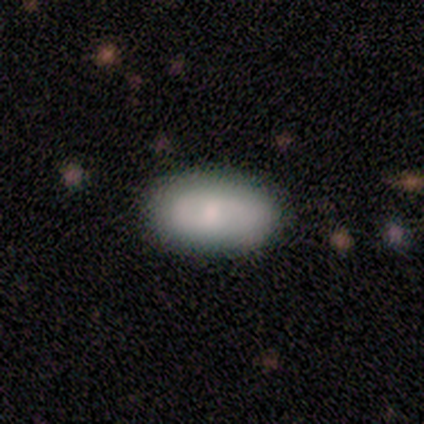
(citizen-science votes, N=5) Smooth or featured: smooth — 80% (featured or disk — 20%)
How rounded: in between — 75% (cigar-shaped — 25%)
Merging: none — 60% (minor disturbance — 40%)